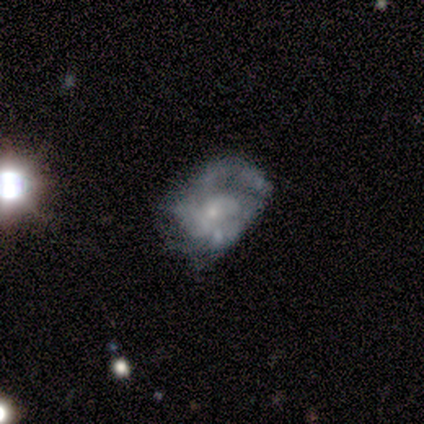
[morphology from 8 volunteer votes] This is likely a featured or disk galaxy (75%). It is clearly not viewed edge-on (100%). Bar: likely no (67%). Spiral arm pattern: clearly yes (100%). Spiral arm count: likely can't tell (67%). Spiral winding: possibly loose (50%). Central bulge: likely small (67%). Merging: marginally none (38%, tied with minor disturbance).